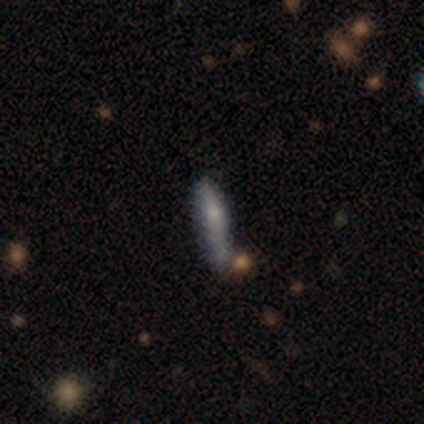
This is clearly a smooth galaxy (83%). How rounded: likely in between (60%). Merging: likely none (67%).